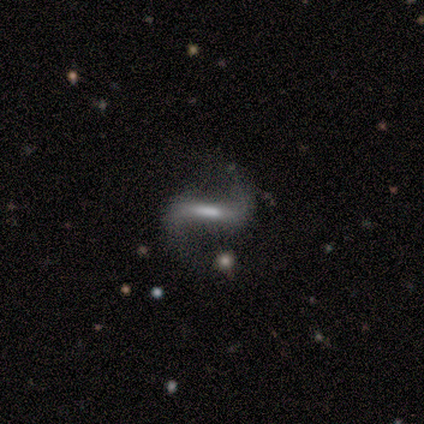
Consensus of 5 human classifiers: A featured or disk galaxy (100%) with a strong bar (60%), 2 (100%) loose (50%) spiral arms (80%) and a moderate central bulge (40%, tied with none).

Vote fractions:
- Smooth or featured? featured or disk: 100% / smooth: 0% / star or artifact: 0%
- Edge-on disk? no: 100% / yes: 0%
- Bar? strong: 60% / weak: 40% / no: 0%
- Spiral arms? yes: 80% / no: 20%
- Spiral winding? loose: 50% / tight: 25% / medium: 25%
- Spiral arm count? 2: 100% / 1: 0% / 3: 0% / 4: 0% / more than 4: 0% / can't tell: 0%
- Bulge size? moderate: 40% (tied) / none: 40% (tied) / small: 20% / dominant: 0% / large: 0%
- Merging? none: 60% / minor disturbance: 20% / major disturbance: 20% / merger: 0%